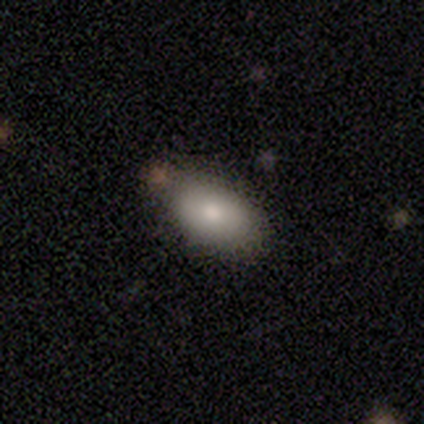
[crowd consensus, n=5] Smooth or featured?
  - smooth: 60% *
  - featured or disk: 40%
  - star or artifact: 0%
How rounded?
  - in between: 100% *
  - round: 0%
  - cigar-shaped: 0%
Merging?
  - none: 40% * (tied)
  - merger: 40% * (tied)
  - minor disturbance: 20%
  - major disturbance: 0%